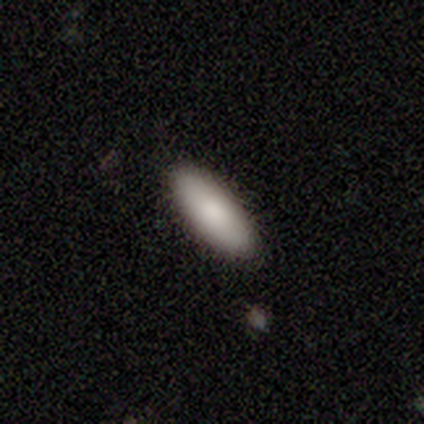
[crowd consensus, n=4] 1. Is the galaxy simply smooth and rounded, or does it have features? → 75% smooth, 25% star or artifact, 0% featured or disk.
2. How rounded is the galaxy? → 67% cigar-shaped, 33% in between, 0% round.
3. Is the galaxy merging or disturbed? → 100% none, 0% minor disturbance, 0% major disturbance, 0% merger.